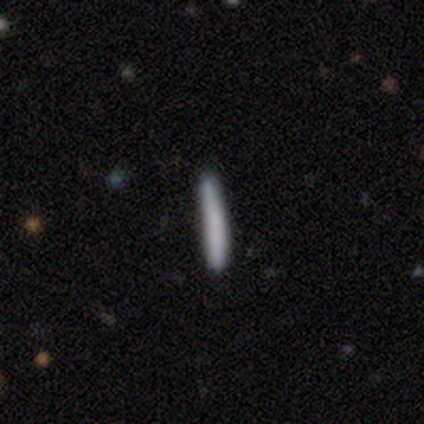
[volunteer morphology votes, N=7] smooth-or-featured: smooth: 57% | featured or disk: 29% | star or artifact: 14%
  how-rounded: cigar-shaped: 100% | round: 0% | in between: 0%
  merging: none: 100% | minor disturbance: 0% | major disturbance: 0% | merger: 0%